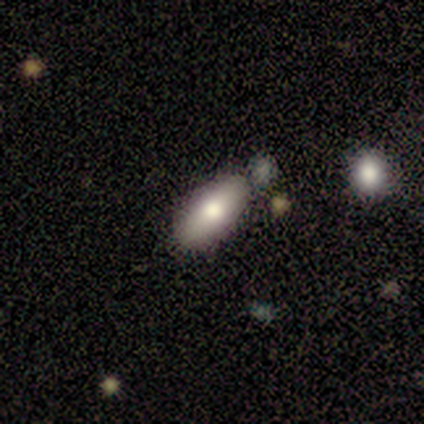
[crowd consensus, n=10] Q: Smooth or featured?
A: smooth (70%); runner-up: featured or disk (30%)
Q: How rounded?
A: in between (86%); runner-up: cigar-shaped (14%)
Q: Merging?
A: none (70%); runner-up: merger (20%)